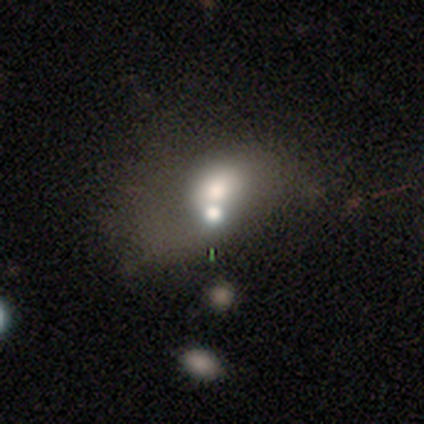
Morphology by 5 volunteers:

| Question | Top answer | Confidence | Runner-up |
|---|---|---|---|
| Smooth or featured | smooth | 80% | featured or disk (20%) |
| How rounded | round | 75% | in between (25%) |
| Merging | major disturbance | 80% | none (20%) |